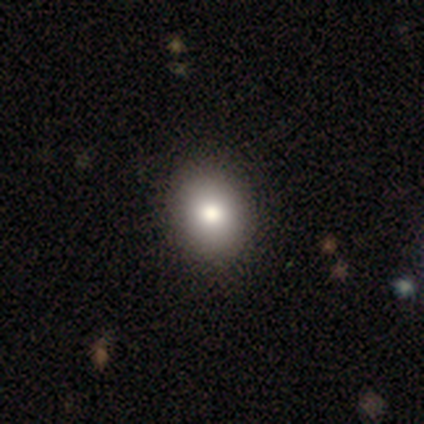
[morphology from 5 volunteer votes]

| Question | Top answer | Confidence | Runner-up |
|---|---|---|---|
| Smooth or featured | smooth | 60% | featured or disk (20%) |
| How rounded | round | 67% | in between (33%) |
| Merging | none | 75% | minor disturbance (25%) |